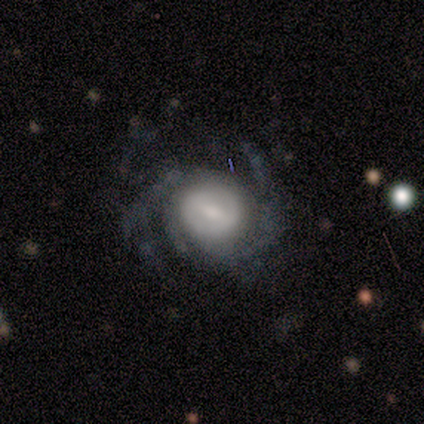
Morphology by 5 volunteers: Smooth or featured? 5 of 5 (100%) said featured or disk. Edge-on disk? 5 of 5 (100%) said no. Bar? 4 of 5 (80%) said weak. Spiral arms? 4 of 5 (80%) said yes. Spiral winding? 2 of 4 (50%) said tight. Spiral arm count? 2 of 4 (50%, tied with can't tell) said 2. Bulge size? 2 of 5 (40%, tied with small) said large. Merging? 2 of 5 (40%, tied with major disturbance) said none.